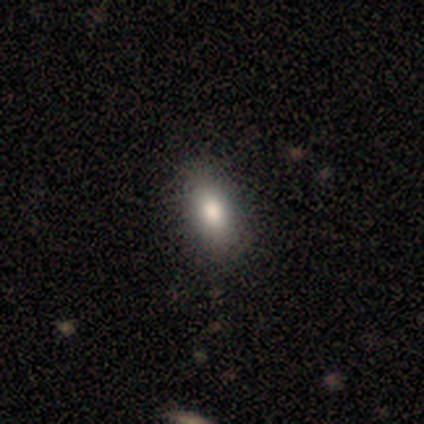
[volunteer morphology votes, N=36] smooth-or-featured: smooth: 72% | star or artifact: 25% | featured or disk: 3%
  how-rounded: in between: 88% | round: 8% | cigar-shaped: 4%
  merging: none: 81% | minor disturbance: 15% | major disturbance: 4% | merger: 0%